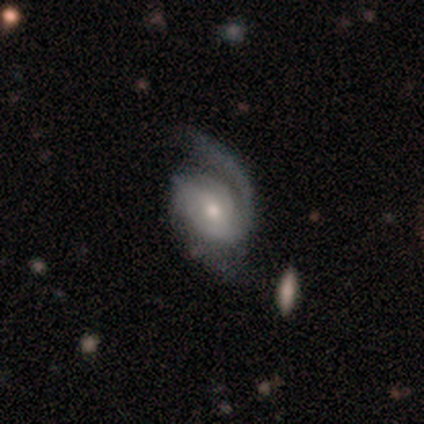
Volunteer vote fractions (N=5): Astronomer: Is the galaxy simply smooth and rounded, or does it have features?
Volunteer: featured or disk — 80%.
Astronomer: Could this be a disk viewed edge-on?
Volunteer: no — 100%.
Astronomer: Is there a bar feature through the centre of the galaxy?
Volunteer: no — 75%.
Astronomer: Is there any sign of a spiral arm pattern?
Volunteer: yes — 100%.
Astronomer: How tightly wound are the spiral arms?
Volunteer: medium — 75%.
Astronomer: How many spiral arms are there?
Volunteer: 1 — 50%, tied with 2 at 50%.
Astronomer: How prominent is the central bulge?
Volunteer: moderate — 50%.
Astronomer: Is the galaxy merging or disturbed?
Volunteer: none — 80%.